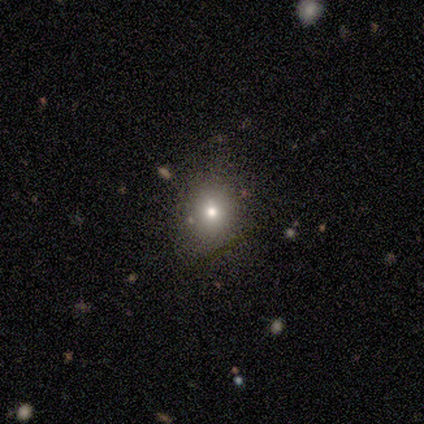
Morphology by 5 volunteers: Smooth or featured? smooth (80%)
How rounded? round (75%)
Merging? none (100%)